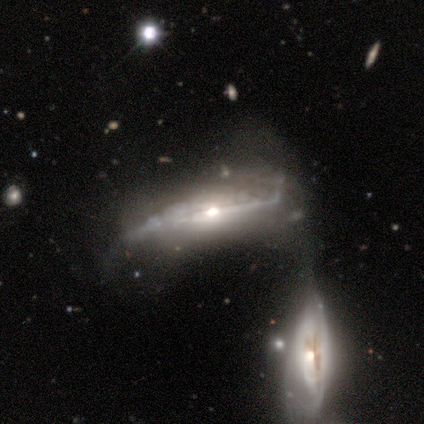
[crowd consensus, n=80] Smooth or featured? 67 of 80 (84%) said featured or disk. Edge-on disk? 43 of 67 (64%) said yes. Edge-on bulge? 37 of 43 (86%) said rounded. Merging? 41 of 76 (54%) said merger.